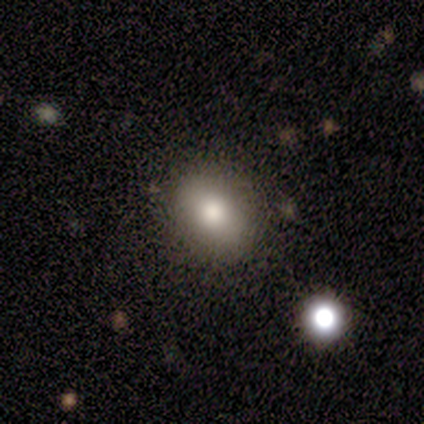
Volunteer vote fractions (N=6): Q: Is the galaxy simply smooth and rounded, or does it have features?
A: smooth — 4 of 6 (67%).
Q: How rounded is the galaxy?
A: in between — 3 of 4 (75%).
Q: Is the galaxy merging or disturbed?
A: none — 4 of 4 (100%).